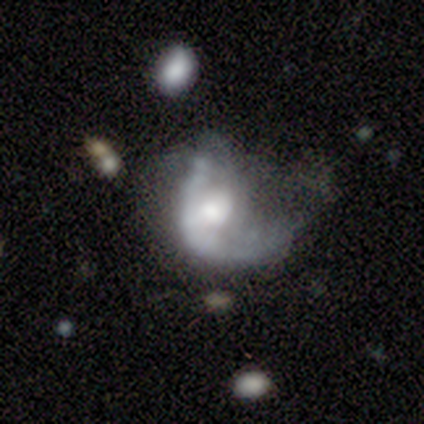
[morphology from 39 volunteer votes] This is likely a featured or disk galaxy (69%). It is clearly not viewed edge-on (96%). Bar: clearly no (81%). Spiral arm pattern: likely no (62%). Central bulge: marginally moderate (42%). Merging: likely major disturbance (64%).